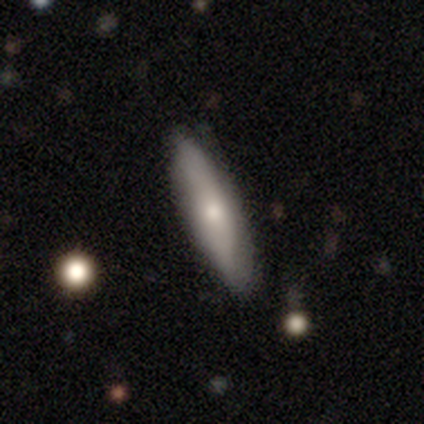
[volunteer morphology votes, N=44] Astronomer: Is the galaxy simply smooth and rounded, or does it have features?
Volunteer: smooth — 66%.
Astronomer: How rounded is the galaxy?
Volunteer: cigar-shaped — 79%.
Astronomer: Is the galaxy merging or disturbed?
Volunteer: none — 81%.